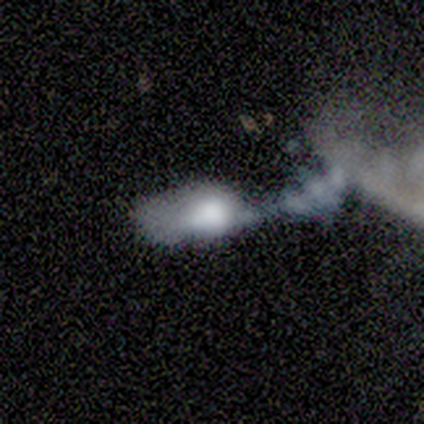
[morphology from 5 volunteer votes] smooth 60%, star or artifact 40%, featured or disk 0%. Down the decision tree: how rounded — in between (67%); merging — merger (67%).